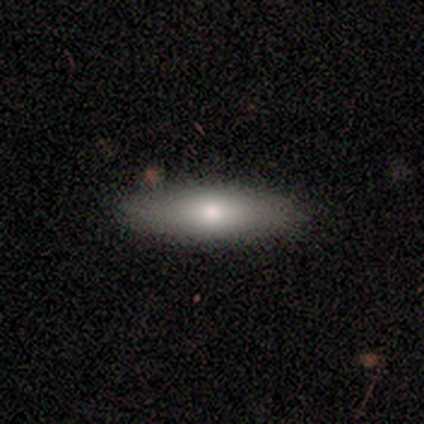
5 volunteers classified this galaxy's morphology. Overall: smooth (80%). How rounded: in between (75%). Merging: none (100%).